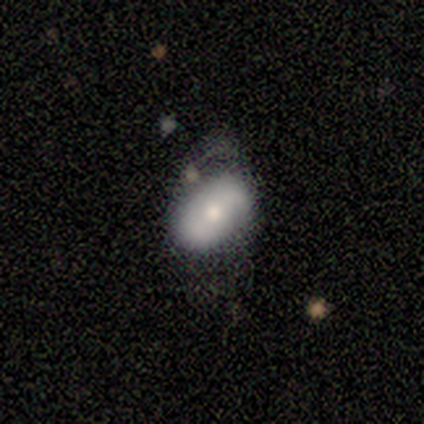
Smooth or featured? 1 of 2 (50%, tied with featured or disk) said smooth. How rounded? 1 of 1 (100%) said in between. Merging? 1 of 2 (50%, tied with minor disturbance) said none.